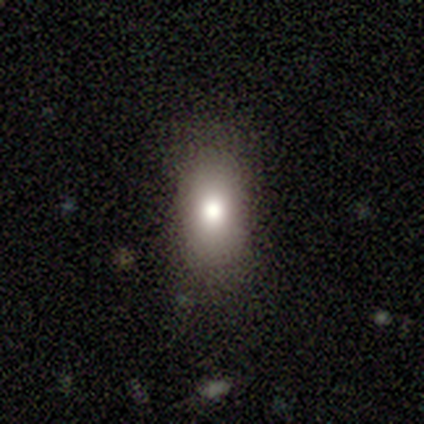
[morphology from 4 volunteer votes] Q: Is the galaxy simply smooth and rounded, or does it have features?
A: smooth — 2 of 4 (50%).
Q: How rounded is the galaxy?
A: in between — 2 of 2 (100%).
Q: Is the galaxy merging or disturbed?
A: none — 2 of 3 (67%).